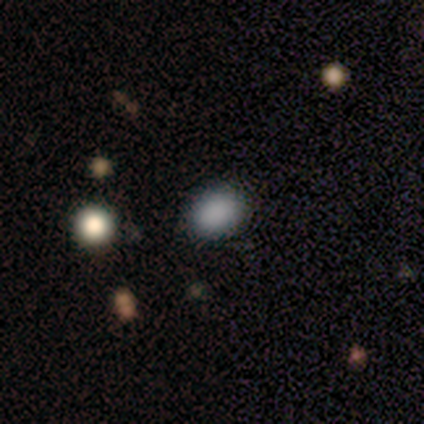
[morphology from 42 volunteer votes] smooth-or-featured: smooth: 76% | star or artifact: 17% | featured or disk: 7%
  how-rounded: in between: 75% | round: 25% | cigar-shaped: 0%
  merging: none: 86% | minor disturbance: 11% | major disturbance: 3% | merger: 0%